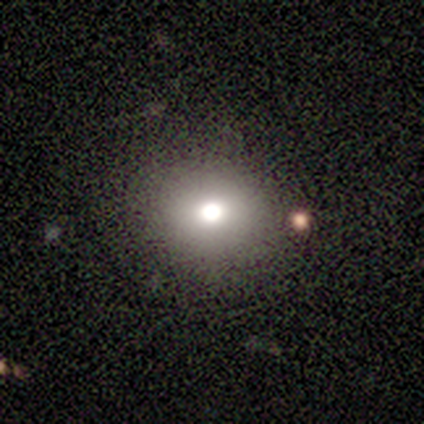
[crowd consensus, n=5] smooth 40% (tied), star or artifact 40% (tied), featured or disk 20%. Down the decision tree: how rounded — round (100%); merging — none (100%).